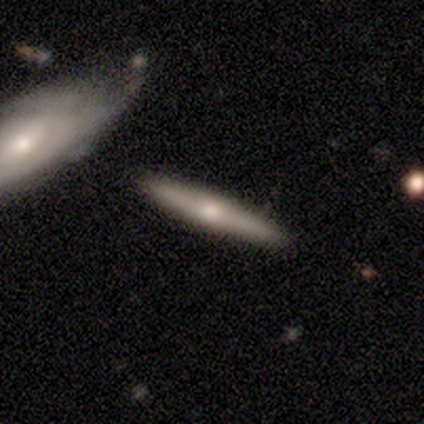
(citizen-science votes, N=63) Smooth or featured: featured or disk — 62% (smooth — 33%)
Edge-on disk: yes — 95% (no — 5%)
Edge-on bulge: rounded — 95% (boxy — 5%)
Merging: none — 83% (minor disturbance — 8%)